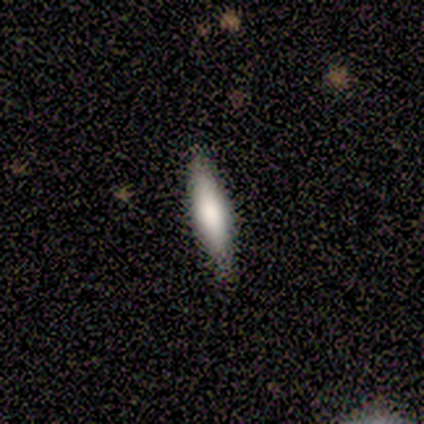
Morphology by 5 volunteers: featured or disk 60%, smooth 40%, star or artifact 0%. Down the decision tree: edge-on disk — yes (100%); edge-on bulge — rounded (67%); merging — none (100%).